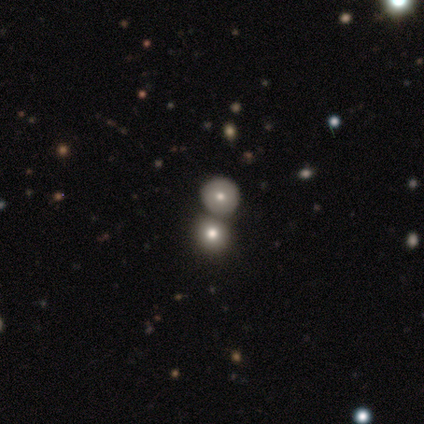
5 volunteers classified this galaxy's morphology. smooth_or_featured: smooth (p=0.60) [alt: featured or disk p=0.20]
how_rounded: round (p=1.00)
merging: merger (p=0.50) [alt: none p=0.25]